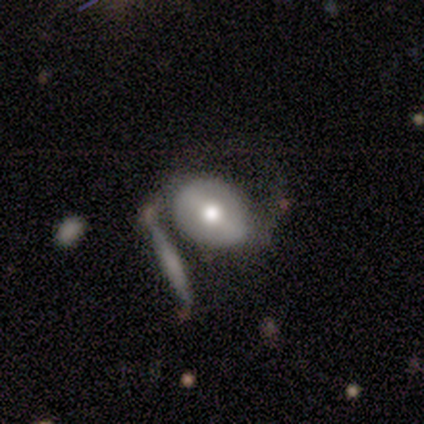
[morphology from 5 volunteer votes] This is clearly a smooth galaxy (80%). How rounded: possibly round (50%, tied with in between). Merging: marginally merger (40%).